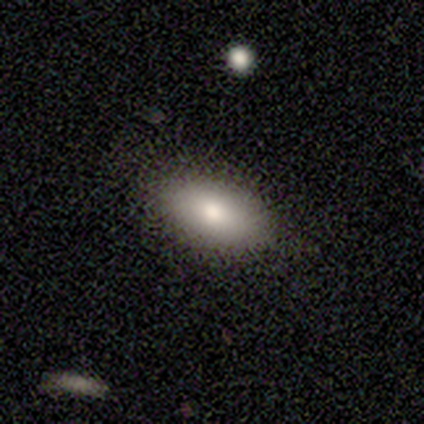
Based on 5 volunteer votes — Volunteers were most divided on "merging": none: 60%, minor disturbance: 20%, major disturbance: 20%, merger: 0%. More confident: smooth or featured — smooth (100%); how rounded — in between (80%).